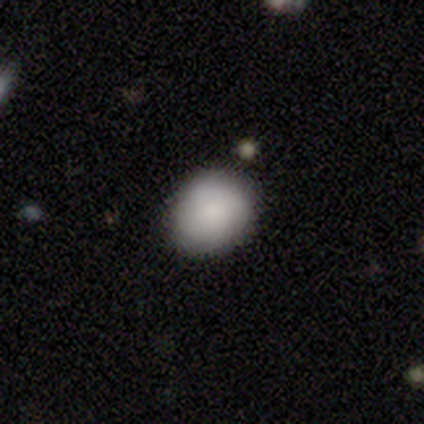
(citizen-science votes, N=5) Overall: smooth (80%). How rounded: round (100%). Merging: none (75%).